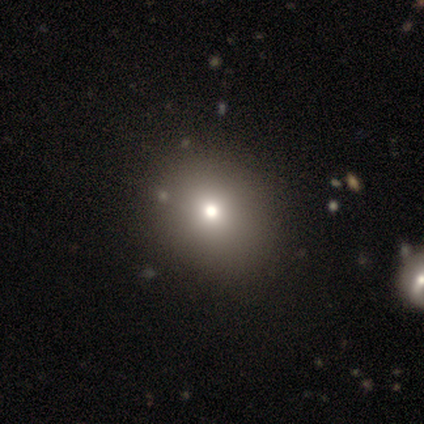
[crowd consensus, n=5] A smooth galaxy with no disk features (100%) that is round (80%). Merging: none (100%).